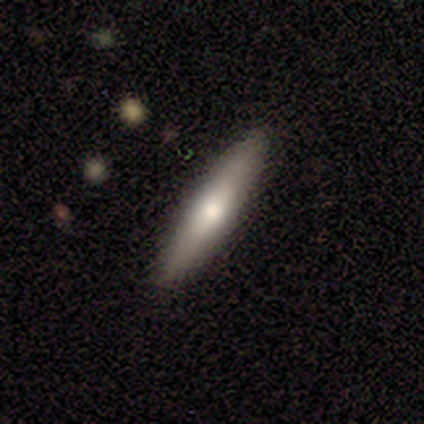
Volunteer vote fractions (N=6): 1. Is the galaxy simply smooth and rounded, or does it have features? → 67% smooth, 33% featured or disk, 0% star or artifact.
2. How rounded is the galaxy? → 75% cigar-shaped, 25% in between, 0% round.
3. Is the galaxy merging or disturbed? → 100% none, 0% minor disturbance, 0% major disturbance, 0% merger.